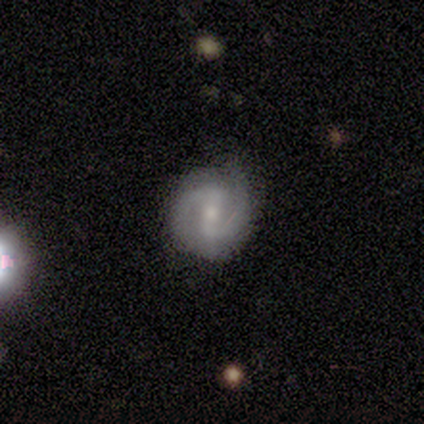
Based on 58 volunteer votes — featured or disk 69%, smooth 22%, star or artifact 9%. Down the decision tree: edge-on disk — no (100%); bar — weak (50%); spiral arms — yes (95%); spiral arm count — 2 (97%); spiral winding — medium (45%); bulge size — moderate (50%); merging — none (74%).